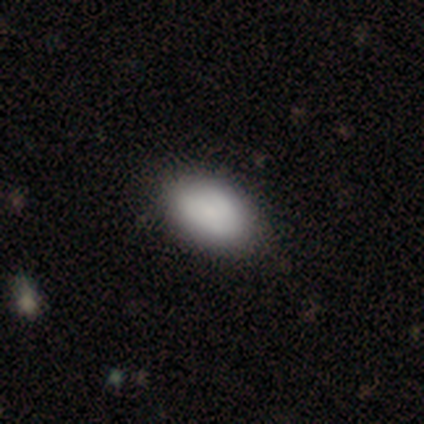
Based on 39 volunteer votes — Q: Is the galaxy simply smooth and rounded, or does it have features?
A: smooth — 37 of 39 (95%).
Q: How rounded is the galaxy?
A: in between — 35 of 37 (95%).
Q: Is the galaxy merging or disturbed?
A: none — 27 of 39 (69%).